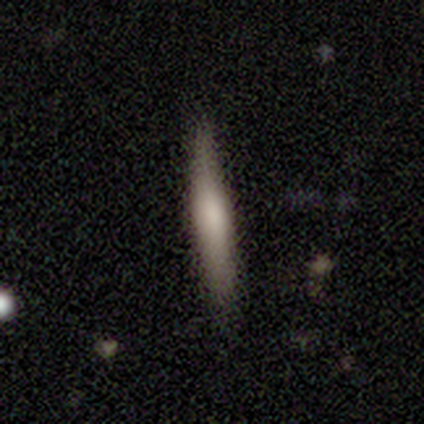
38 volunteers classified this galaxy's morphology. type=smooth (68%); roundness=cigar-shaped (92%); merging=none (82%).